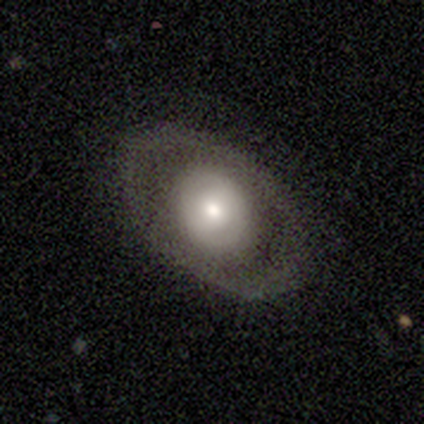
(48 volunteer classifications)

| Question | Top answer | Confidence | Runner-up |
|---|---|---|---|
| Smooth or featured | featured or disk | 58% | smooth (40%) |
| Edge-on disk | no | 96% | yes (4%) |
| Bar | no | 85% | weak (15%) |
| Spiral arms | no | 93% | yes (7%) |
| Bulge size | moderate | 56% | large (26%) |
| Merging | none | 87% | minor disturbance (6%) |